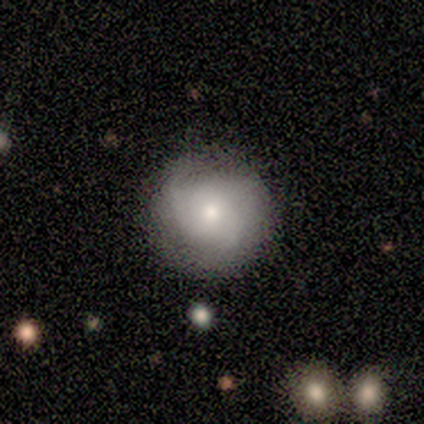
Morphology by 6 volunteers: Overall: smooth (50%, tied with featured or disk). How rounded: round (100%). Merging: none (100%).